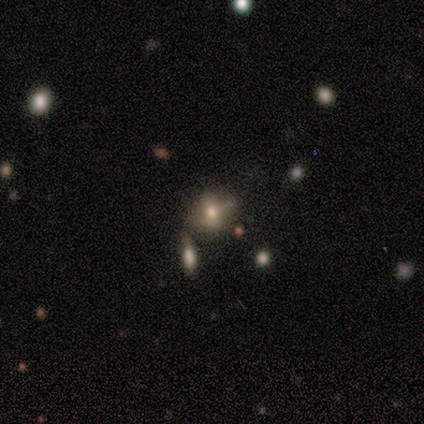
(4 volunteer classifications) smooth_or_featured: star or artifact (p=0.75) [alt: smooth p=0.25]